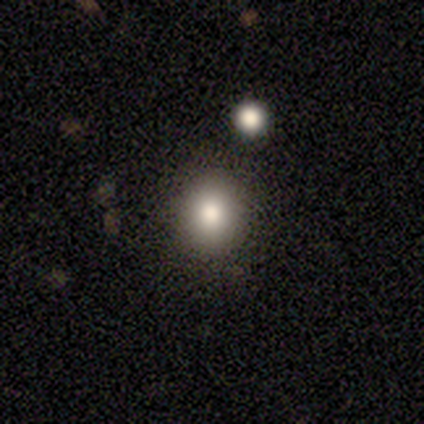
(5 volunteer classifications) smooth-or-featured: smooth: 100% | featured or disk: 0% | star or artifact: 0%
  how-rounded: round: 100% | in between: 0% | cigar-shaped: 0%
  merging: none: 100% | minor disturbance: 0% | major disturbance: 0% | merger: 0%